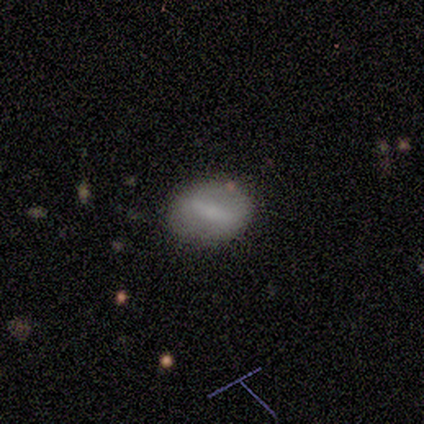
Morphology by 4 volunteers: type=smooth (50%, tied with featured or disk); roundness=round (50%, tied with in between); merging=none (75%).